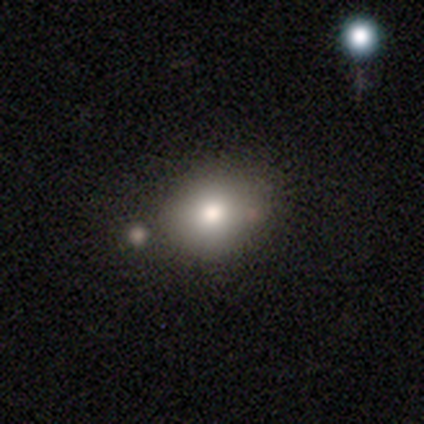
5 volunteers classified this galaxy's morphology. A smooth galaxy with no disk features (100%) that is in between round and cigar-shaped (80%). Merging: none (80%).